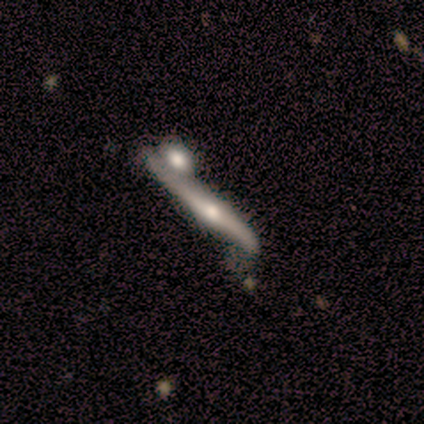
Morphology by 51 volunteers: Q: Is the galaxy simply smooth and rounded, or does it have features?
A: featured or disk — 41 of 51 (80%).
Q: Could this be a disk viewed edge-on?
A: yes — 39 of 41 (95%).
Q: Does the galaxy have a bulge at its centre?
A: rounded — 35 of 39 (90%).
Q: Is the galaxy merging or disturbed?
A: minor disturbance — 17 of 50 (34%).